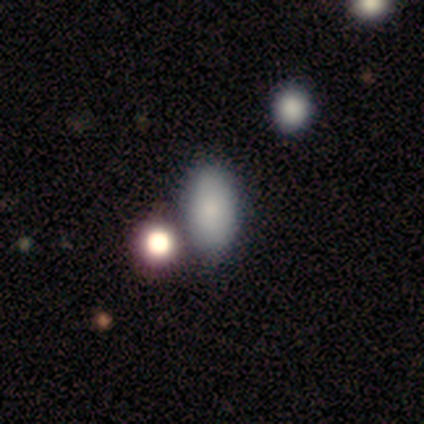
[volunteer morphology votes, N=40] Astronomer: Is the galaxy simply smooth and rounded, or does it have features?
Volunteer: smooth — 72%.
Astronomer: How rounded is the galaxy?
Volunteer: in between — 93%.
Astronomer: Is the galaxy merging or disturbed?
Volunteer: none — 67%.